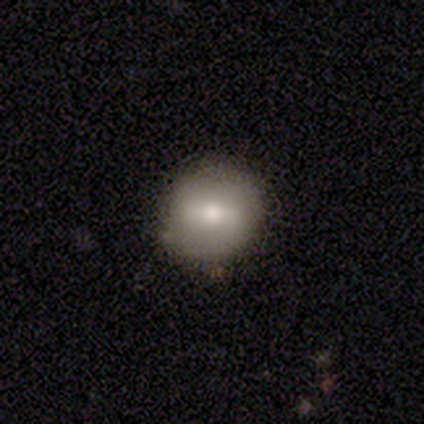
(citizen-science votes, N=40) Overall: smooth (65%; featured or disk 28%). How rounded: round (92%). Merging: none (97%).